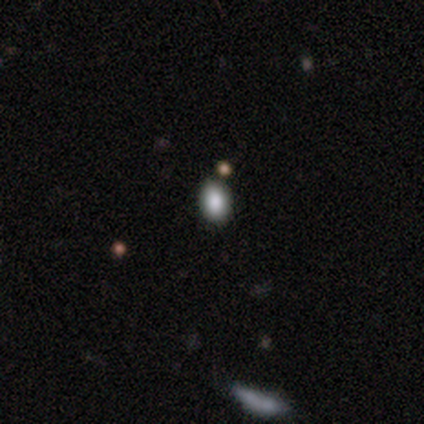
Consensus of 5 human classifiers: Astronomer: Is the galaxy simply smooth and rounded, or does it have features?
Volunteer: smooth — 80%.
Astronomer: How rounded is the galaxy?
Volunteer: in between — 75%.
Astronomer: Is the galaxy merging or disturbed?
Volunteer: none — 75%.